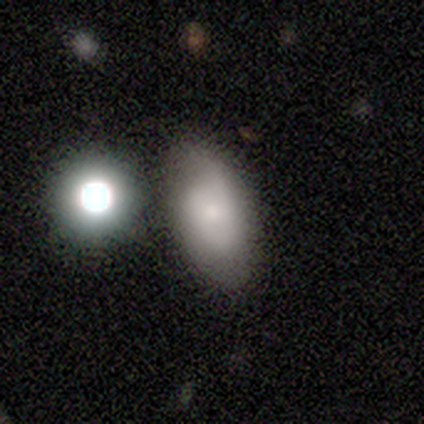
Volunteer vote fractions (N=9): Morphology: type=smooth (78%); roundness=in between (100%); merging=none (38%, tied with minor disturbance).